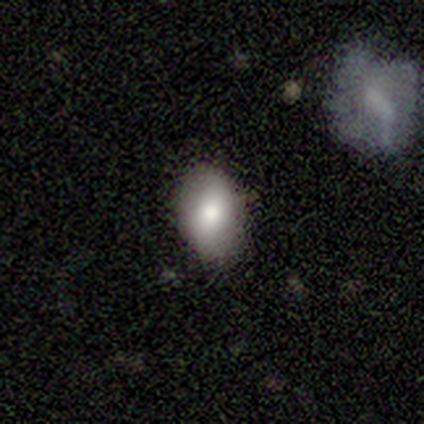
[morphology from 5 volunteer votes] type=smooth (100%); roundness=in between (80%); merging=none (100%).